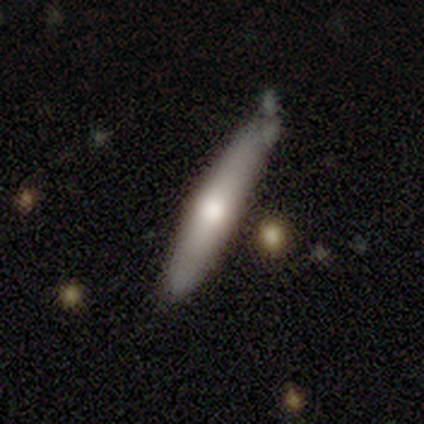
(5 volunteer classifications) Smooth or featured: smooth — 80% (featured or disk — 20%)
How rounded: cigar-shaped — 100%
Merging: minor disturbance — 60% (none — 40%)